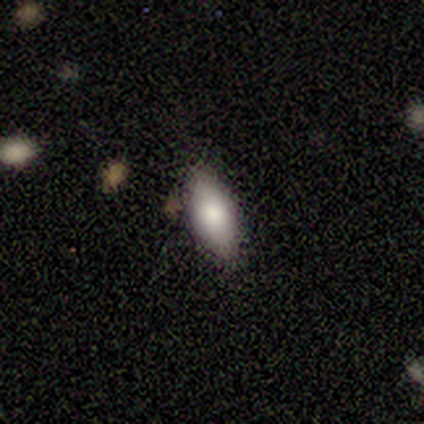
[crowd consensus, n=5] A smooth galaxy with no disk features (100%) that is in between round and cigar-shaped (60%).

Vote fractions:
- Smooth or featured? smooth: 100% / featured or disk: 0% / star or artifact: 0%
- How rounded? in between: 60% / cigar-shaped: 40% / round: 0%
- Merging? none: 100% / minor disturbance: 0% / major disturbance: 0% / merger: 0%